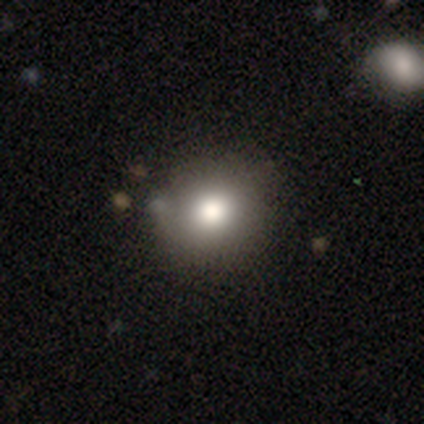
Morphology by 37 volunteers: Smooth or featured? 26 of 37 (70%) said smooth. How rounded? 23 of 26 (88%) said round. Merging? 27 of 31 (87%) said none.